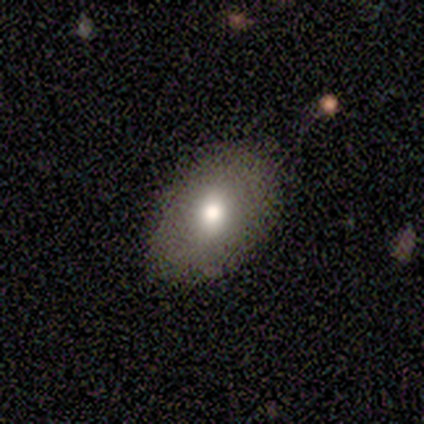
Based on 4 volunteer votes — This appears to be a smooth galaxy with no disk features (75%) that is in between round and cigar-shaped (67%). Merging: none (100%).